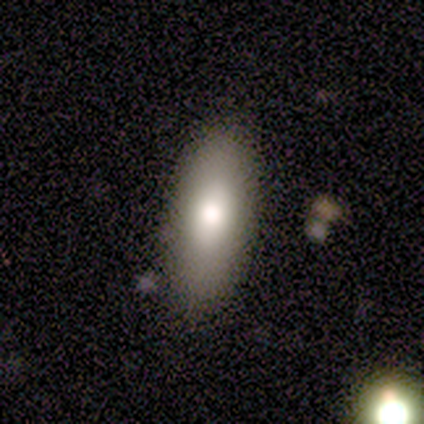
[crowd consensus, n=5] smooth_or_featured: smooth (p=1.00)
how_rounded: in between (p=0.60) [alt: cigar-shaped p=0.40]
merging: none (p=0.80) [alt: minor disturbance p=0.20]